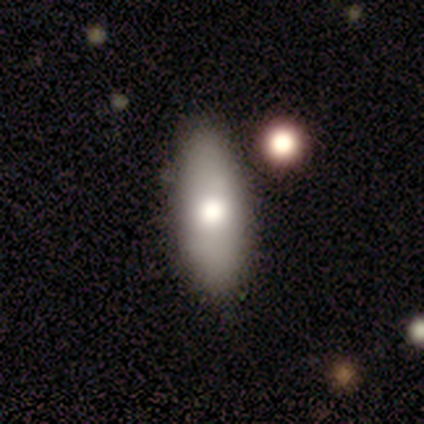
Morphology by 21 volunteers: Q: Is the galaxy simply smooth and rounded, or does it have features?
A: smooth — 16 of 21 (76%).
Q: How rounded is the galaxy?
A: in between — 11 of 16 (69%).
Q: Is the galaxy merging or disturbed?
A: none — 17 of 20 (85%).